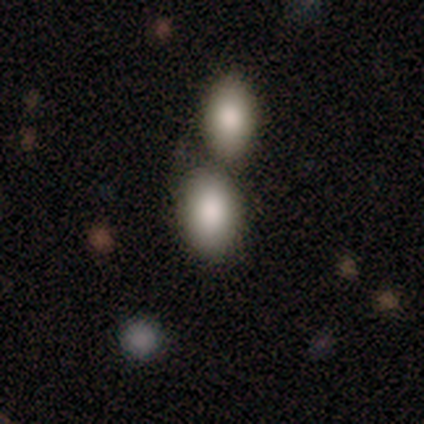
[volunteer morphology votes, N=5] Smooth or featured? smooth (80%)
How rounded? in between (100%)
Merging? none (80%)